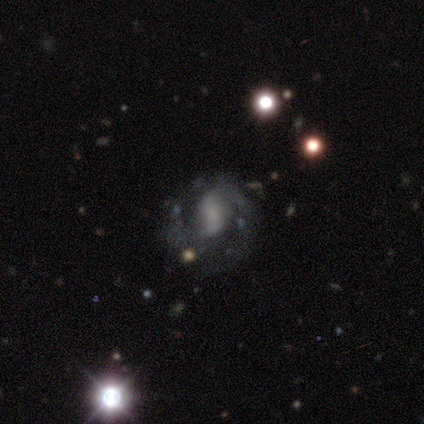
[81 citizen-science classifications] smooth-or-featured: featured or disk: 90% | smooth: 5% | star or artifact: 5%
  disk-edge-on: no: 100% | yes: 0%
    bar: no: 58% | weak: 37% | strong: 5%
    has-spiral-arms: yes: 75% | no: 25%
      spiral-winding: medium: 53% | loose: 27% | tight: 20%
      spiral-arm-count: 2: 55% | can't tell: 31% | 1: 7% | 3: 7% | 4: 0% | more than 4: 0%
    bulge-size: small: 40% (tied) | none: 40% (tied) | moderate: 12% | large: 7% | dominant: 1%
  merging: none: 39% | minor disturbance: 8% | major disturbance: 5% | merger: 1%